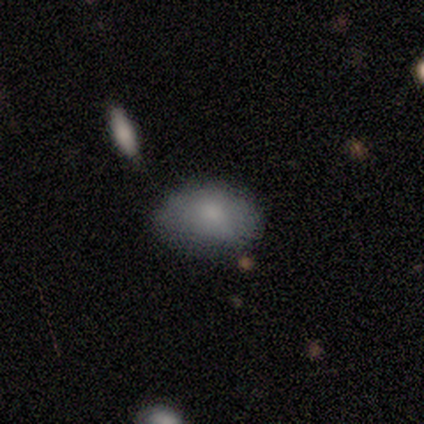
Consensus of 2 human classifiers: Morphology: type=smooth (100%); roundness=in between (100%); merging=none (50%, tied with minor disturbance).